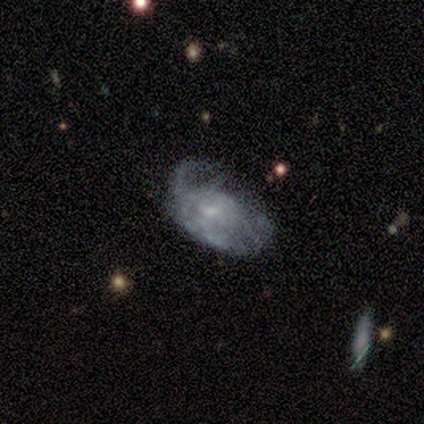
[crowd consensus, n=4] A featured or disk galaxy (75%) with a weak bar (67%), 2 (50%, tied with 3) tight (100%) spiral arms (67%) and a small central bulge (67%). Merging: minor disturbance (50%).